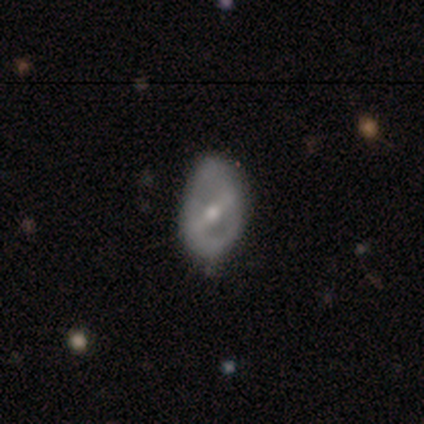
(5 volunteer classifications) smooth_or_featured: featured or disk (p=0.80) [alt: smooth p=0.20]
disk_edge_on: no (p=1.00)
bar: strong (p=0.50) [tied with: weak p=0.50]
has_spiral_arms: no (p=1.00)
bulge_size: moderate (p=0.50) [tied with: small p=0.50]
merging: minor disturbance (p=0.60) [alt: none p=0.40]